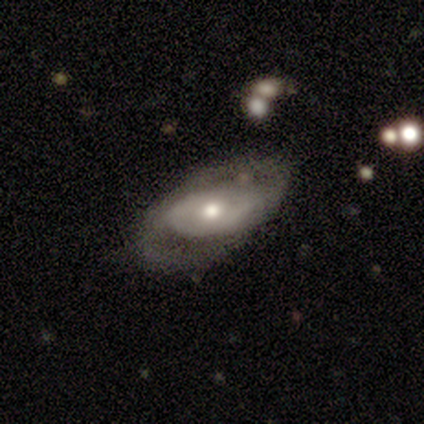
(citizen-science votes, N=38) A featured or disk galaxy (79%) with no bar (81%), 2 (69%) medium (46%) spiral arms (50%, tied with no) and a moderate central bulge (81%).

Vote fractions:
- Smooth or featured? featured or disk: 79% / smooth: 13% / star or artifact: 8%
- Edge-on disk? no: 87% / yes: 13%
- Bar? no: 81% / weak: 15% / strong: 4%
- Spiral arms? yes: 50% (tied) / no: 50% (tied)
- Spiral winding? medium: 46% / loose: 31% / tight: 23%
- Spiral arm count? 2: 69% / can't tell: 23% / 3: 8% / 1: 0% / 4: 0% / more than 4: 0%
- Bulge size? moderate: 81% / small: 15% / dominant: 4% / large: 0% / none: 0%
- Merging? none: 71% / major disturbance: 17% / minor disturbance: 9% / merger: 3%